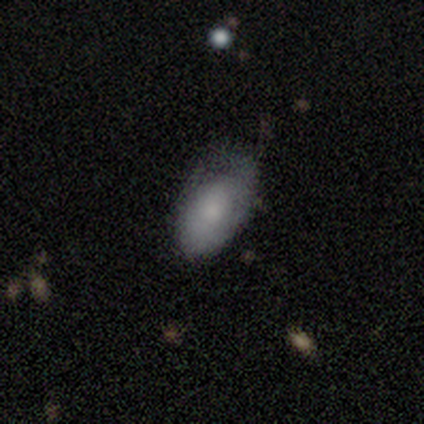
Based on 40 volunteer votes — Smooth or featured: smooth — 70% (featured or disk — 28%)
How rounded: in between — 93% (round — 4%)
Merging: minor disturbance — 49% (none — 41%)